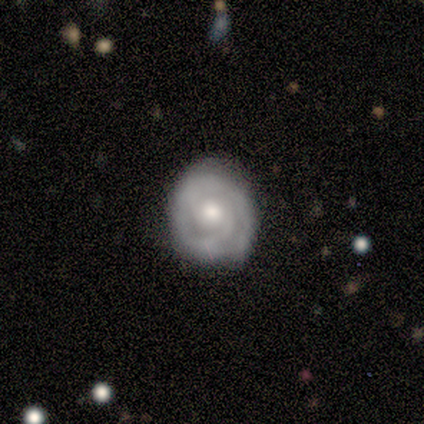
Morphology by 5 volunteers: smooth_or_featured: featured or disk (p=1.00)
disk_edge_on: no (p=1.00)
bar: no (p=1.00)
has_spiral_arms: yes (p=1.00)
spiral_winding: tight (p=0.80) [alt: medium p=0.20]
spiral_arm_count: 2 (p=0.80) [alt: 1 p=0.20]
bulge_size: moderate (p=0.60) [alt: large p=0.20]
merging: none (p=1.00)